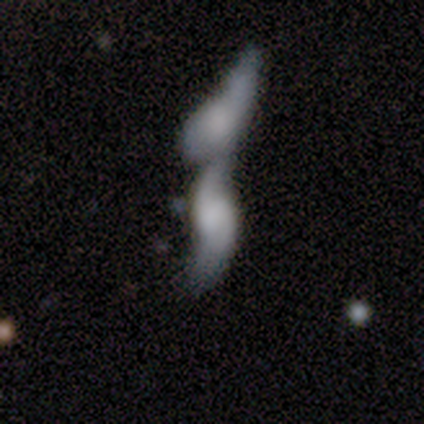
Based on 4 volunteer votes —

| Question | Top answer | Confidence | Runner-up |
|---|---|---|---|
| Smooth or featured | featured or disk | 100% | — |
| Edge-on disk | no | 100% | — |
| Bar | weak | 50% | tied: no (50%) |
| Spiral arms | yes | 100% | — |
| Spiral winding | loose | 100% | — |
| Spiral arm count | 2 | 100% | — |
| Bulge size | none | 50% | moderate (25%) |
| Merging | merger | 100% | — |